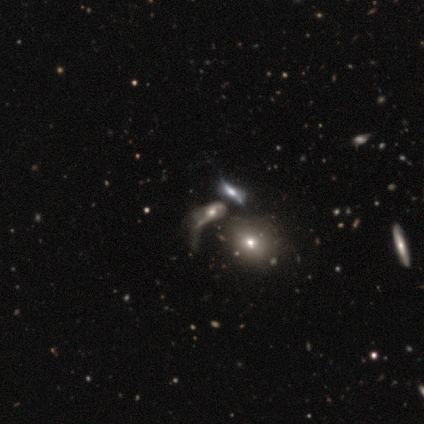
A featured or disk galaxy (66%) with no bar (77%), 2 (44%) loose (59%) spiral arms (57%) and a moderate central bulge (47%). Merging: merger (36%).